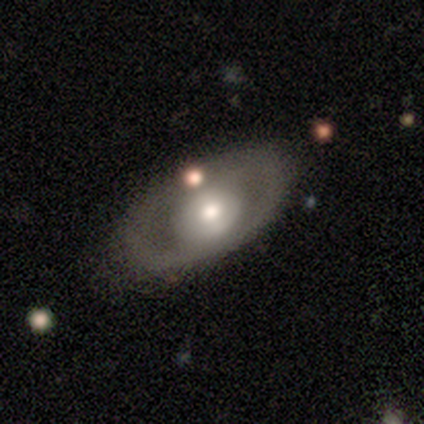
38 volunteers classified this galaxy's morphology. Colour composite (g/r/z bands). It shows a featured or disk galaxy (74%) with no bar (79%), no spiral arms (75%) and a moderate central bulge (67%). Merging: none (81%).